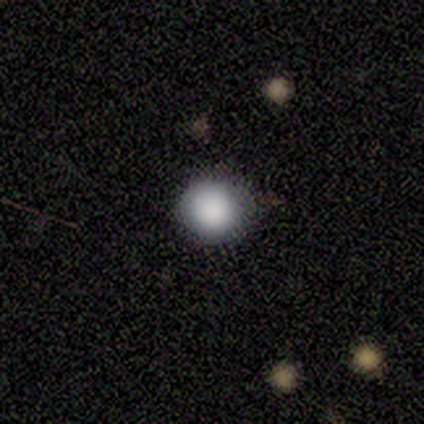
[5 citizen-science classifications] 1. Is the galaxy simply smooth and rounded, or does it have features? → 80% smooth, 20% star or artifact, 0% featured or disk.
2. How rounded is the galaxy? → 100% round, 0% in between, 0% cigar-shaped.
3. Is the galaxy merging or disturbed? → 100% none, 0% minor disturbance, 0% major disturbance, 0% merger.